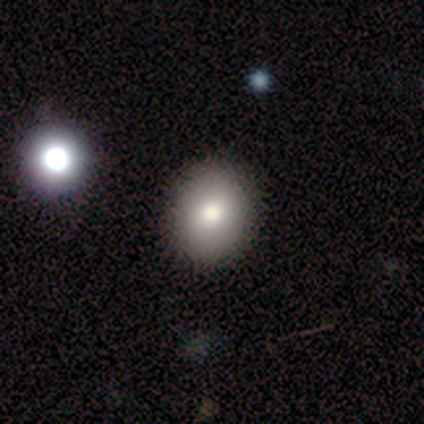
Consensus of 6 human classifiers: Overall: smooth (67%; star or artifact 33%). How rounded: round (50%, tied with in between). Merging: none (100%).